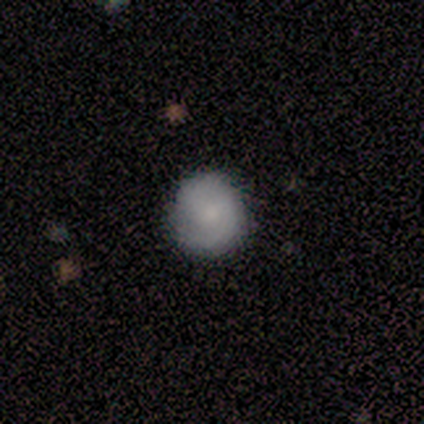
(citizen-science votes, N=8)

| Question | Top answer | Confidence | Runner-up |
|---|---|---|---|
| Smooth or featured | smooth | 62% | featured or disk (38%) |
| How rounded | round | 100% | — |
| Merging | none | 88% | minor disturbance (12%) |